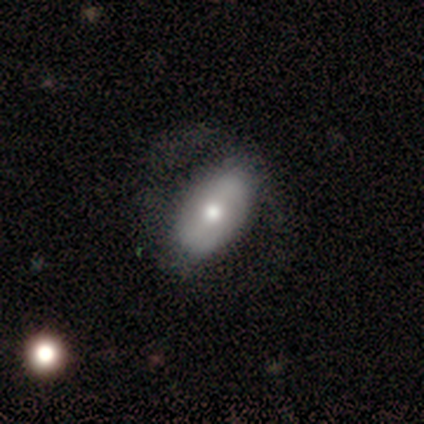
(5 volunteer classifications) Overall: smooth (60%; featured or disk 40%). How rounded: in between (100%). Merging: none (60%; minor disturbance 20%).